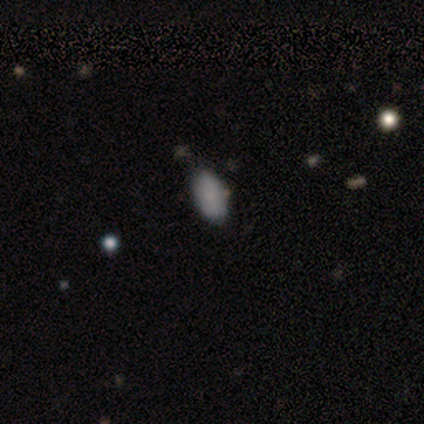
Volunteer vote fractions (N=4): Q: Smooth or featured?
A: smooth (75%); runner-up: star or artifact (25%)
Q: How rounded?
A: in between (100%)
Q: Merging?
A: none (67%); runner-up: minor disturbance (33%)